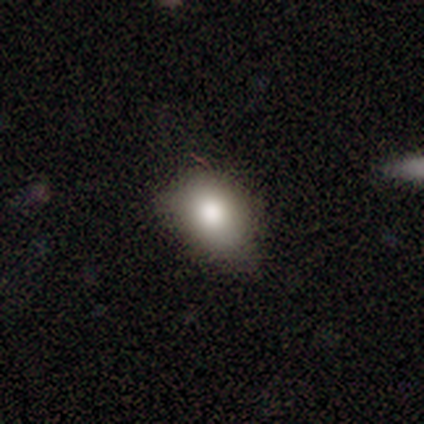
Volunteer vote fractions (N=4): smooth-or-featured: smooth: 100% | featured or disk: 0% | star or artifact: 0%
  how-rounded: in between: 100% | round: 0% | cigar-shaped: 0%
  merging: none: 50% (tied) | minor disturbance: 50% (tied) | major disturbance: 0% | merger: 0%